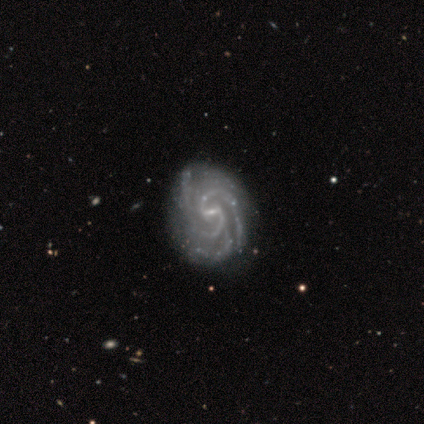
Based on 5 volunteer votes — Smooth or featured: featured or disk — 100%
Edge-on disk: no — 80% (yes — 20%)
Bar: weak — 50% (strong — 25%)
Spiral arms: yes — 100%
Spiral winding: tight — 75% (medium — 25%)
Spiral arm count: 2 — 50% (3 — 25%)
Bulge size: small — 100%
Merging: none — 80% (minor disturbance — 20%)